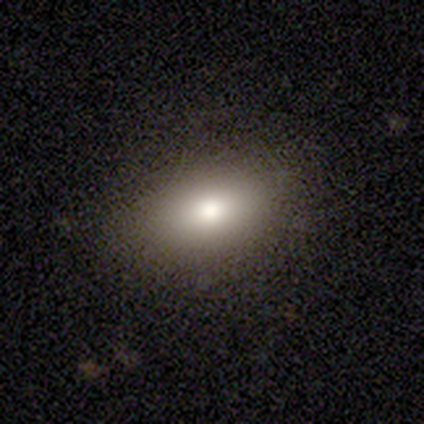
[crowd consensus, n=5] Smooth or featured?
  - smooth: 80% *
  - featured or disk: 20%
  - star or artifact: 0%
How rounded?
  - in between: 100% *
  - round: 0%
  - cigar-shaped: 0%
Merging?
  - none: 100% *
  - minor disturbance: 0%
  - major disturbance: 0%
  - merger: 0%